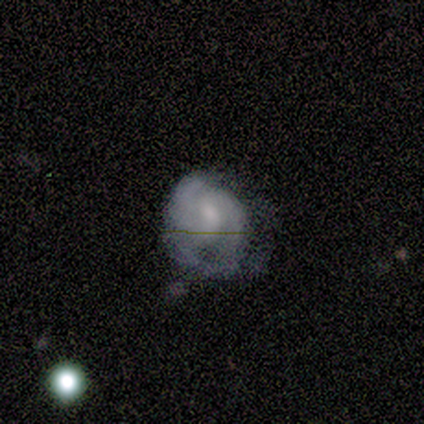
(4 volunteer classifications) Morphology: type=smooth (50%, tied with featured or disk); roundness=round (100%); merging=none (50%, tied with minor disturbance).